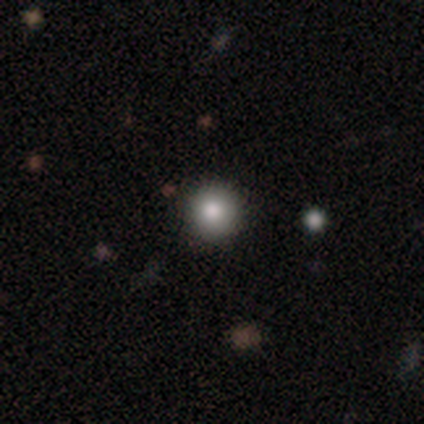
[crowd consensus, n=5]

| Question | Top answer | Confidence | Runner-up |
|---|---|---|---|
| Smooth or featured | smooth | 80% | star or artifact (20%) |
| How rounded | round | 100% | — |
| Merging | none | 100% | — |